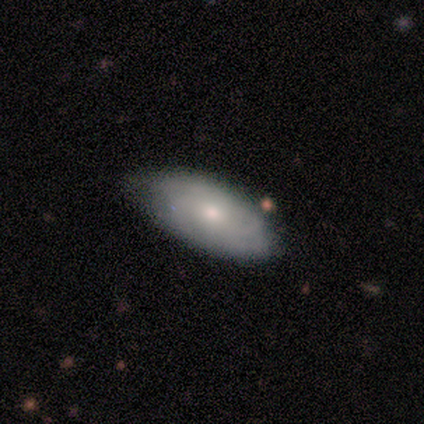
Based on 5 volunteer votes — This appears to be a smooth galaxy with no disk features (80%) that is in between round and cigar-shaped (75%). Merging: none (60%).